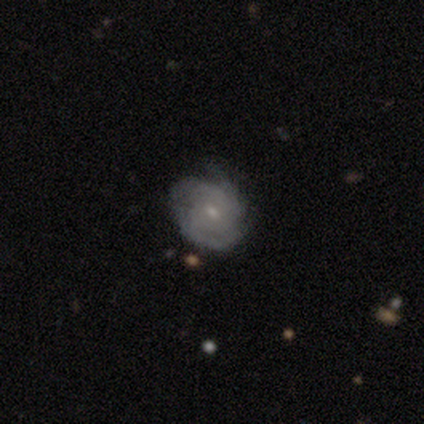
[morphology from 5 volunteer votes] A featured or disk galaxy (100%) with no bar (100%), tight (60%) spiral arms (100%) and a small central bulge (100%).

Vote fractions:
- Smooth or featured? featured or disk: 100% / smooth: 0% / star or artifact: 0%
- Edge-on disk? no: 100% / yes: 0%
- Bar? no: 100% / strong: 0% / weak: 0%
- Spiral arms? yes: 100% / no: 0%
- Spiral winding? tight: 60% / medium: 20% / loose: 20%
- Spiral arm count? can't tell: 80% / more than 4: 20% / 1: 0% / 2: 0% / 3: 0% / 4: 0%
- Bulge size? small: 100% / dominant: 0% / large: 0% / moderate: 0% / none: 0%
- Merging? none: 80% / minor disturbance: 20% / major disturbance: 0% / merger: 0%